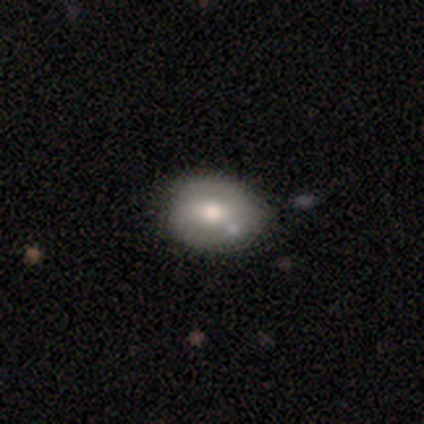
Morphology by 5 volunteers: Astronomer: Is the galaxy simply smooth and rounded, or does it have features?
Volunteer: smooth — 60% (runner-up: featured or disk, 40%).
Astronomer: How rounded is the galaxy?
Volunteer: in between — 67%.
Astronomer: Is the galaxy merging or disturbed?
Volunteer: minor disturbance — 60% (runner-up: none, 40%).